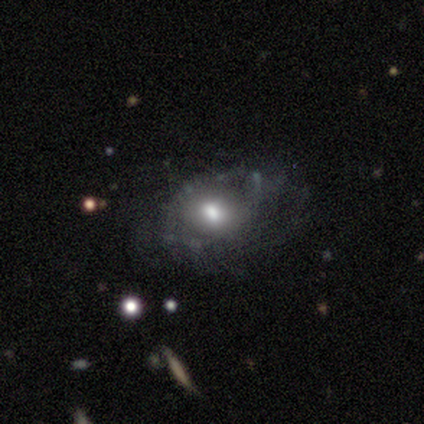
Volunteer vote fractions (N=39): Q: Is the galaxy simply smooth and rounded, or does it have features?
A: featured or disk — 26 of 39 (67%).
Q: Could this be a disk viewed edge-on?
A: no — 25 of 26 (96%).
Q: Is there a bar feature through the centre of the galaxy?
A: no — 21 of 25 (84%).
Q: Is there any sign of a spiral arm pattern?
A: no — 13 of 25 (52%).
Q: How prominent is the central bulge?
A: moderate — 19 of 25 (76%).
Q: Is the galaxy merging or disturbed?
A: none — 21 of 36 (58%).